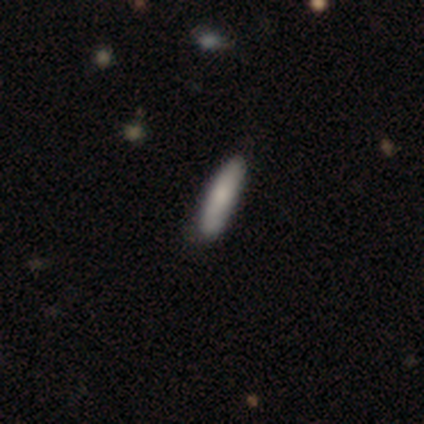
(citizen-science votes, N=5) Smooth or featured? smooth (80%)
How rounded? cigar-shaped (100%)
Merging? none (100%)